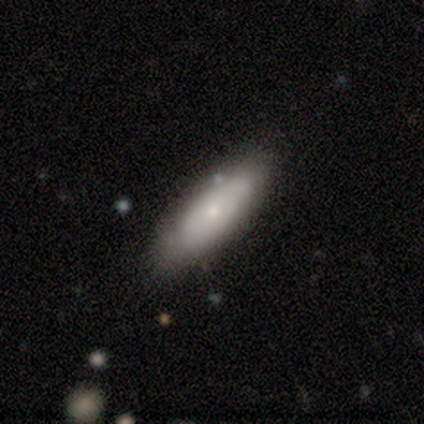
Smooth or featured? featured or disk (60%)
Edge-on disk? no (100%)
Bar? no (100%)
Spiral arms? yes (67%)
Spiral winding? tight (100%)
Spiral arm count? 1 (50%, tied with can't tell)
Bulge size? small (100%)
Merging? none (100%)